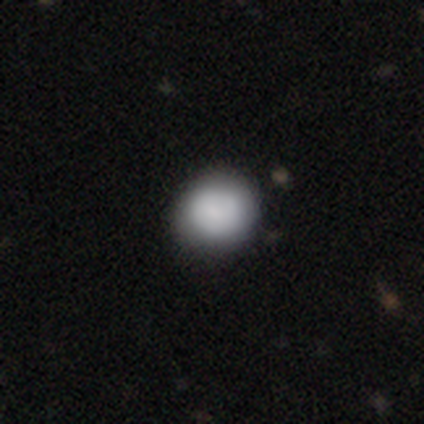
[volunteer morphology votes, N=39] type=smooth (77%); roundness=round (93%); merging=none (58%).